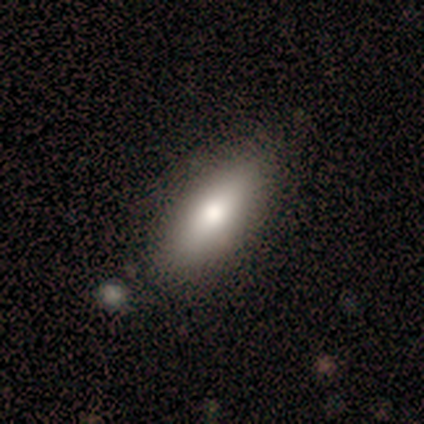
This is clearly a smooth galaxy (100%). How rounded: likely in between (60%). Merging: clearly none (80%).